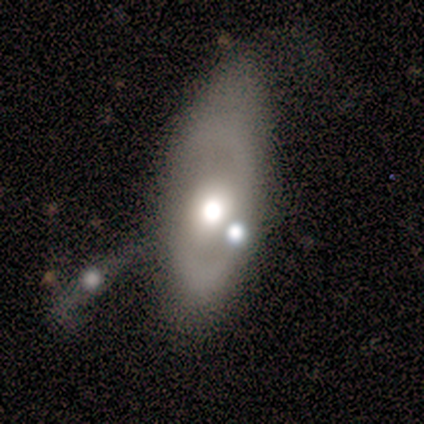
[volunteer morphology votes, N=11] This appears to be a featured or disk galaxy (73%) with no bar (71%), no spiral arms (71%) and a moderate central bulge (71%). Merging: none (55%).